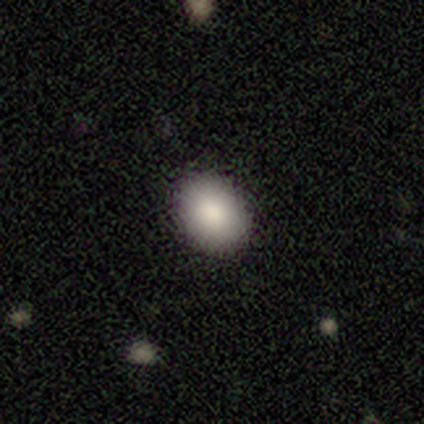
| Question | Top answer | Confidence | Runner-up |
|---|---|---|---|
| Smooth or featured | smooth | 92% | featured or disk (5%) |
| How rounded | in between | 65% | round (35%) |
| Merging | none | 82% | minor disturbance (8%) |